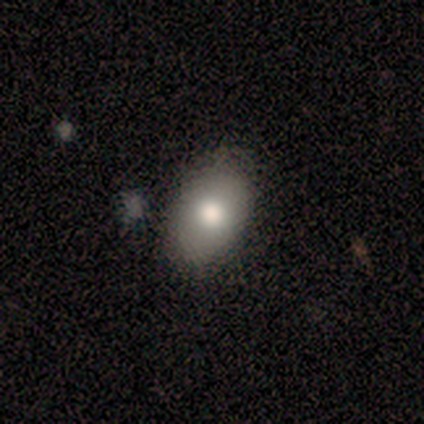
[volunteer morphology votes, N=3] Q: Smooth or featured?
A: smooth (100%)
Q: How rounded?
A: in between (100%)
Q: Merging?
A: none (67%); runner-up: major disturbance (33%)